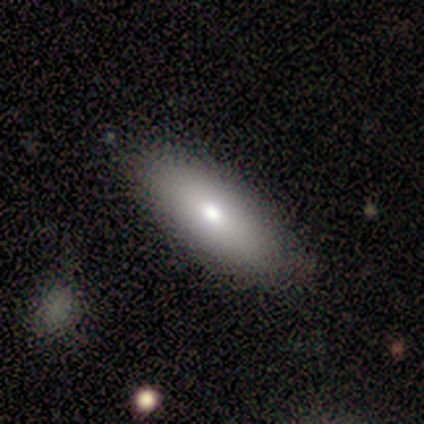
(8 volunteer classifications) Volunteers were most divided on "smooth or featured": smooth: 75%, featured or disk: 25%, star or artifact: 0%. More confident: merging — none (100%); how rounded — in between (83%).